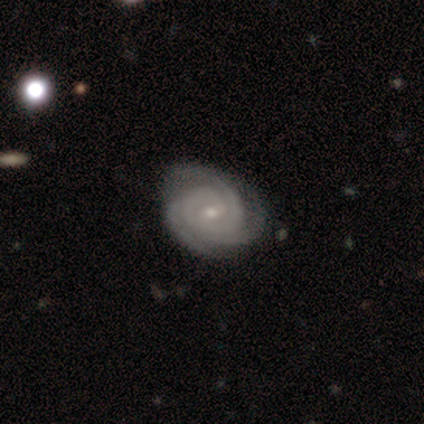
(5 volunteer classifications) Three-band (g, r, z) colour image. It shows a featured or disk galaxy (80%) with a weak bar (75%), 3 (75%) tight (100%) spiral arms (100%) and a small central bulge (75%). Merging: none (50%, tied with major disturbance).